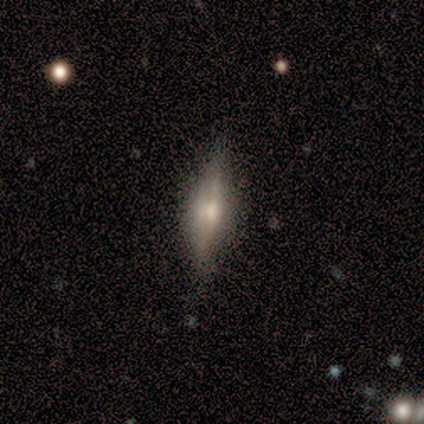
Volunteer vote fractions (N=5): Smooth or featured: featured or disk — 60% (smooth — 40%)
Edge-on disk: yes — 100%
Edge-on bulge: boxy — 33% (tied with none — 33%; rounded — 33%)
Merging: none — 60% (major disturbance — 40%)